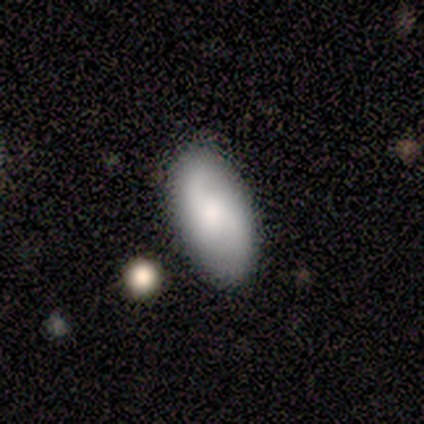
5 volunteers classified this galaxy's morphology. This appears to be a smooth galaxy with no disk features (40%, tied with featured or disk) that is in between round and cigar-shaped (100%). Merging: none (100%).